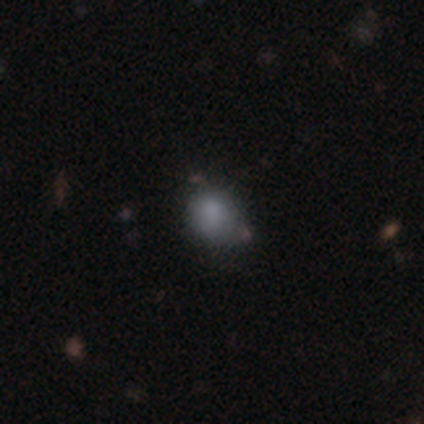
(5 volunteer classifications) Morphology: type=smooth (80%); roundness=round (75%); merging=none (60%).